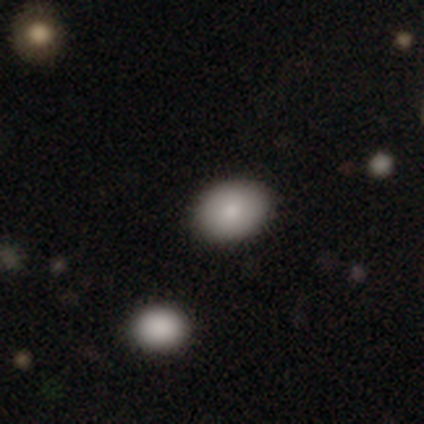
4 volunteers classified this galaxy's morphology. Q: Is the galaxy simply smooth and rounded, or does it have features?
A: smooth — 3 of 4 (75%).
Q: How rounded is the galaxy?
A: in between — 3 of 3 (100%).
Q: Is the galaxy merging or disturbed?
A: none — 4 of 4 (100%).